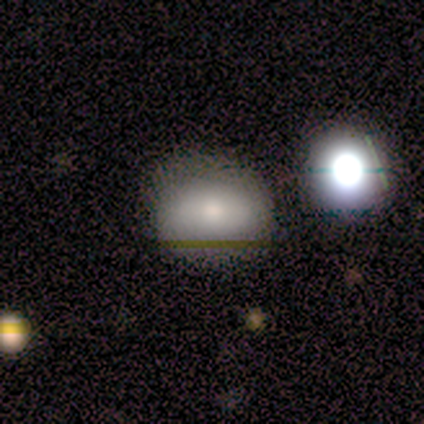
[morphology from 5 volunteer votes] Smooth or featured? 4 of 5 (80%) said smooth. How rounded? 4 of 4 (100%) said round. Merging? 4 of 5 (80%) said none.